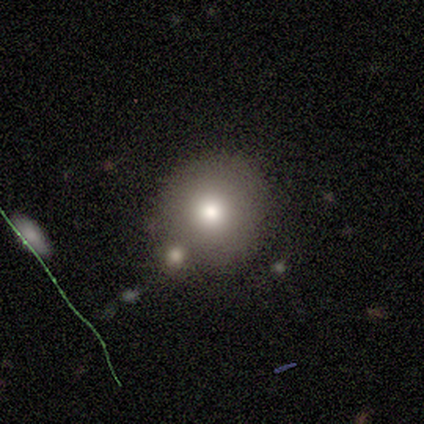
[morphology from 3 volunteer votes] smooth 100%, featured or disk 0%, star or artifact 0%. Down the decision tree: how rounded — round (100%); merging — none (67%).